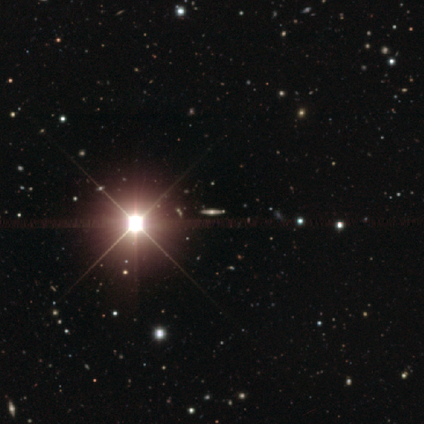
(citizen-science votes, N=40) smooth_or_featured: star or artifact (p=0.68) [alt: featured or disk p=0.28]